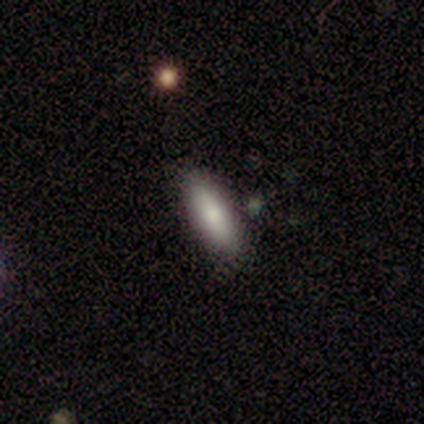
Q: Smooth or featured?
A: smooth (100%)
Q: How rounded?
A: in between (80%); runner-up: cigar-shaped (20%)
Q: Merging?
A: none (100%)